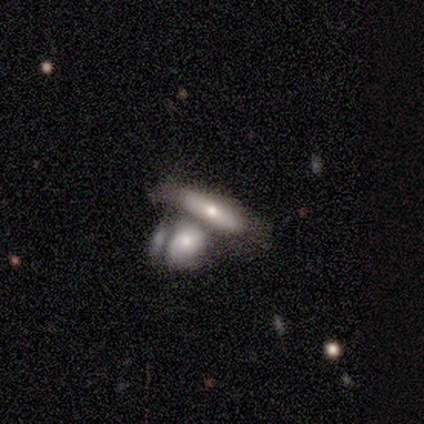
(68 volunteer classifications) Smooth or featured? smooth (47%)
How rounded? in between (47%, tied with cigar-shaped)
Merging? merger (58%)